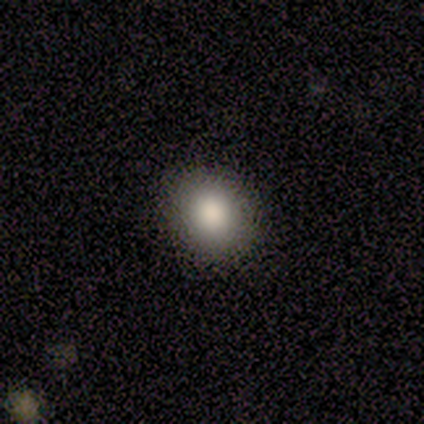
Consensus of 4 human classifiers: Volunteers were most divided on "how rounded": round: 75%, in between: 25%, cigar-shaped: 0%. More confident: smooth or featured — smooth (100%); merging — none (100%).